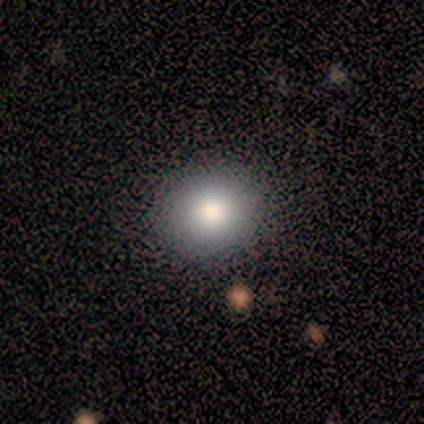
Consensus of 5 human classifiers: Q: Smooth or featured?
A: smooth (80%); runner-up: featured or disk (20%)
Q: How rounded?
A: round (75%); runner-up: in between (25%)
Q: Merging?
A: none (80%); runner-up: minor disturbance (20%)